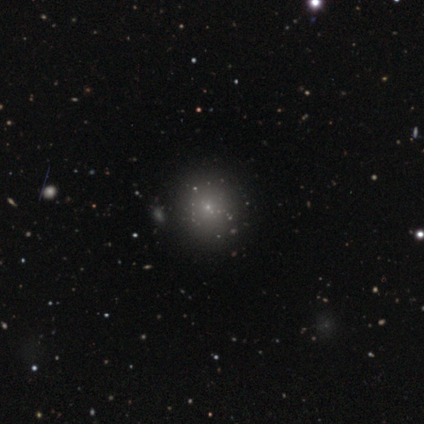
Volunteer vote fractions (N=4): Q: Smooth or featured?
A: smooth (75%); runner-up: star or artifact (25%)
Q: How rounded?
A: round (67%); runner-up: in between (33%)
Q: Merging?
A: none (100%)